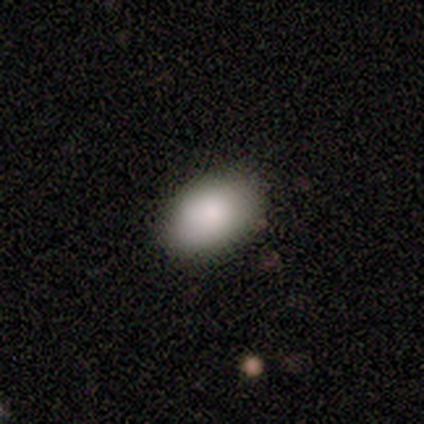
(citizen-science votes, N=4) smooth_or_featured: smooth (p=1.00)
how_rounded: in between (p=1.00)
merging: none (p=1.00)